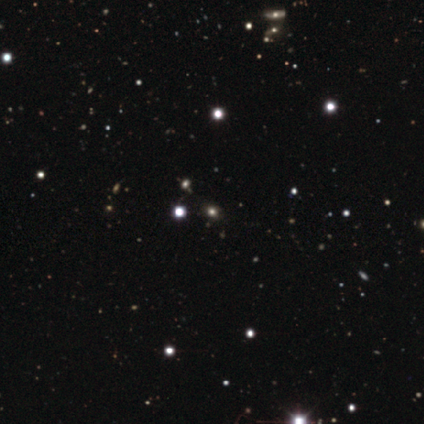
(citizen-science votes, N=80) A star or artifact, not a galaxy (76%).

Vote fractions:
- Smooth or featured? star or artifact: 76% / smooth: 21% / featured or disk: 2%